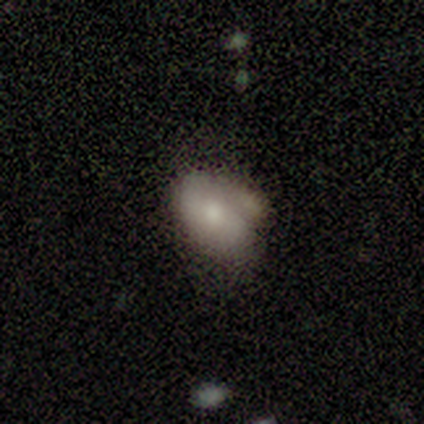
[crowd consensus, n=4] Smooth or featured?
  - smooth: 75% *
  - featured or disk: 25%
  - star or artifact: 0%
How rounded?
  - in between: 100% *
  - round: 0%
  - cigar-shaped: 0%
Merging?
  - minor disturbance: 100% *
  - none: 0%
  - major disturbance: 0%
  - merger: 0%